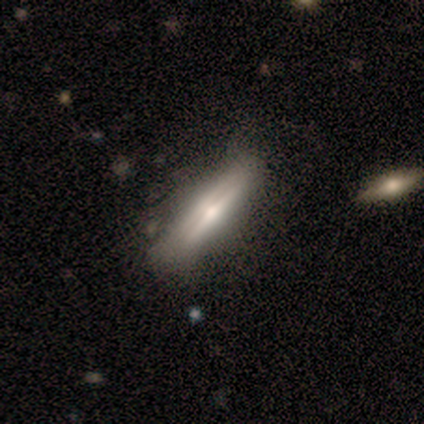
smooth-or-featured: smooth: 100% | featured or disk: 0% | star or artifact: 0%
  how-rounded: in between: 50% (tied) | cigar-shaped: 50% (tied) | round: 0%
  merging: none: 50% (tied) | minor disturbance: 50% (tied) | major disturbance: 0% | merger: 0%